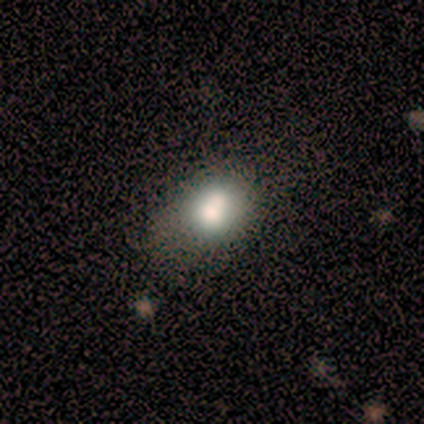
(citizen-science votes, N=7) Volunteers were most divided on "how rounded": round: 57%, in between: 43%, cigar-shaped: 0%. More confident: smooth or featured — smooth (100%); merging — merger (57%).